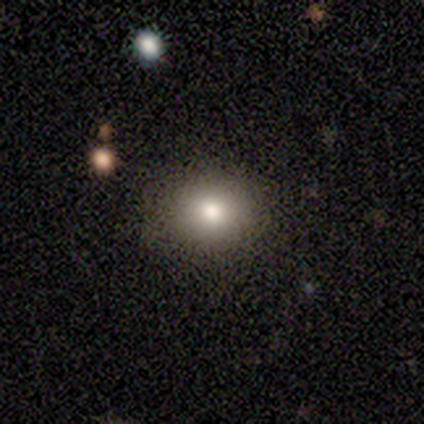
Morphology: type=featured or disk (60%); edge-on=no (100%); bar=no (67%); spiral arms=no (100%); bulge=moderate (67%); merging=none (100%).